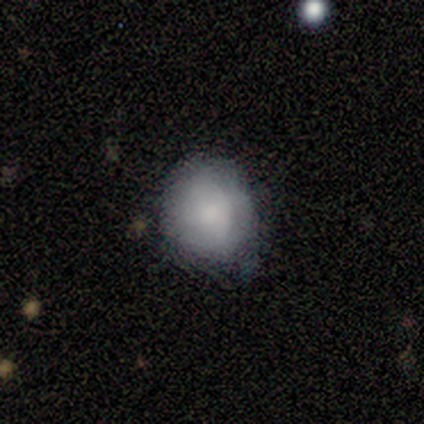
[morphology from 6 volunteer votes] smooth 83%, star or artifact 17%, featured or disk 0%. Down the decision tree: how rounded — round (60%); merging — none (60%).